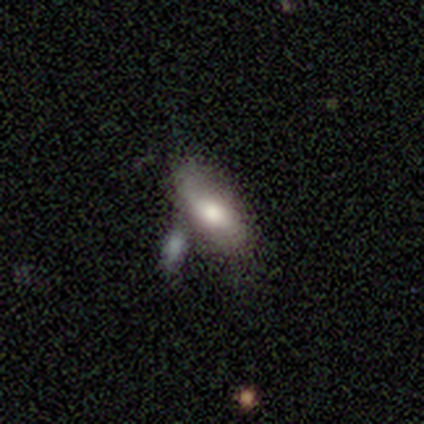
Smooth or featured?
  - smooth: 100% *
  - featured or disk: 0%
  - star or artifact: 0%
How rounded?
  - in between: 100% *
  - round: 0%
  - cigar-shaped: 0%
Merging?
  - none: 33% * (tied)
  - minor disturbance: 33% * (tied)
  - merger: 33% * (tied)
  - major disturbance: 0%